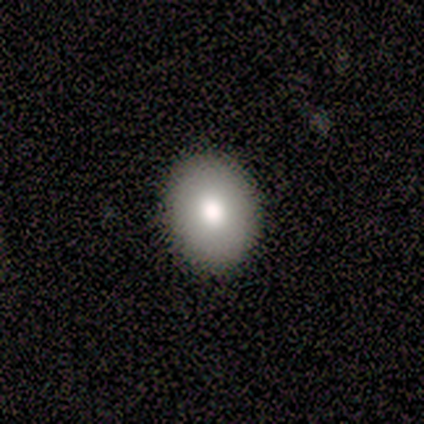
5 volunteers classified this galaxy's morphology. This is clearly a smooth galaxy (80%). How rounded: likely round (75%). Merging: clearly none (100%).